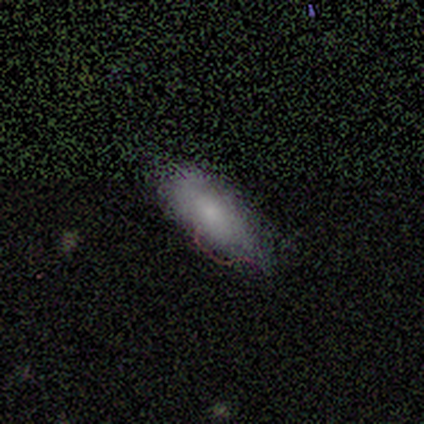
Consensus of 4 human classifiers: Smooth or featured: smooth — 50% (featured or disk — 25%)
How rounded: in between — 50% (tied with cigar-shaped — 50%)
Merging: minor disturbance — 100%